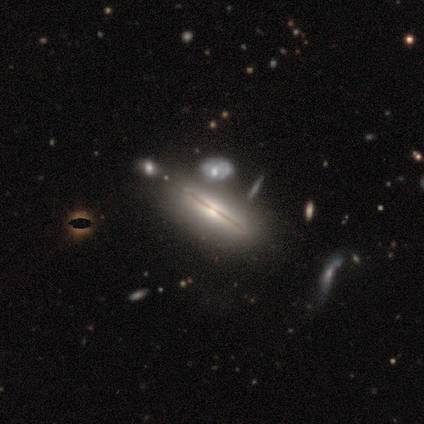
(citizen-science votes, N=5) Smooth or featured? 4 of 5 (80%) said featured or disk. Edge-on disk? 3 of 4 (75%) said yes. Edge-on bulge? 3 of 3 (100%) said rounded. Merging? 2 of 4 (50%) said none.